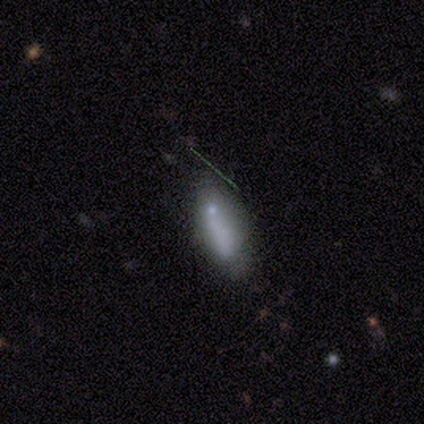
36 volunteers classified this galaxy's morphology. smooth_or_featured: smooth (p=0.64) [alt: featured or disk p=0.19]
how_rounded: in between (p=0.65) [alt: cigar-shaped p=0.35]
merging: minor disturbance (p=0.47) [alt: none p=0.40]